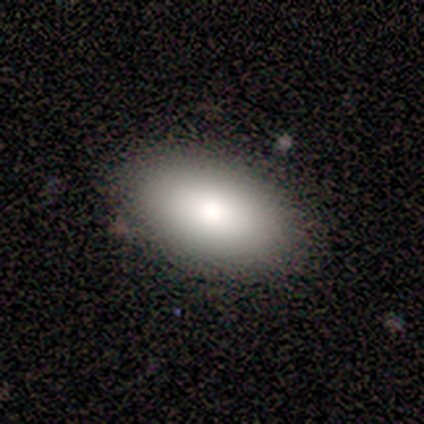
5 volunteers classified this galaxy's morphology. Smooth or featured: smooth — 100%
How rounded: in between — 80% (round — 20%)
Merging: none — 100%